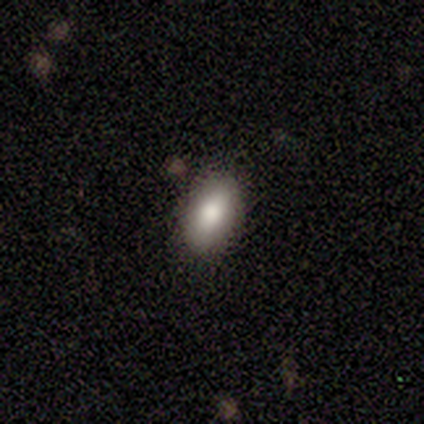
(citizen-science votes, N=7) This is clearly a smooth galaxy (86%). How rounded: clearly in between (100%). Merging: clearly none (86%).